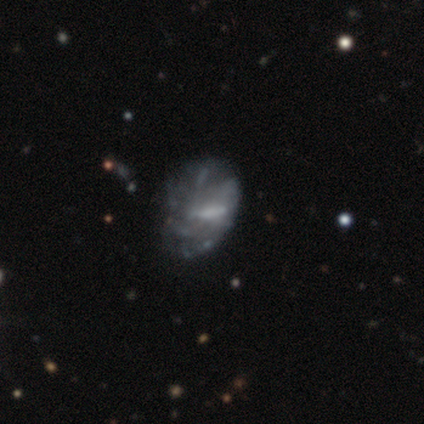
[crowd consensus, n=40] smooth-or-featured: featured or disk: 80% | smooth: 15% | star or artifact: 5%
  disk-edge-on: no: 100% | yes: 0%
    bar: no: 44% | strong: 38% | weak: 19%
    has-spiral-arms: no: 66% | yes: 34%
    bulge-size: none: 53% | moderate: 22% | small: 22% | large: 3% | dominant: 0%
  merging: none: 34% | major disturbance: 26% | minor disturbance: 21% | merger: 3%